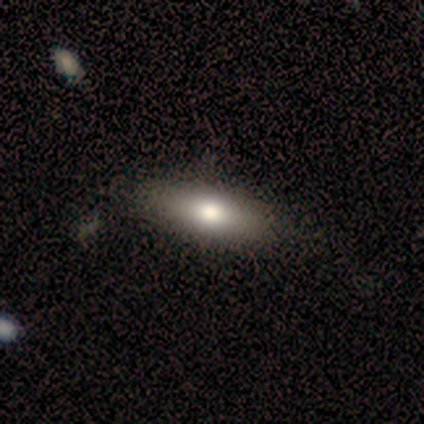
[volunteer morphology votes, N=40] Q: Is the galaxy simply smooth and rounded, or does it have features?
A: smooth — 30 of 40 (75%).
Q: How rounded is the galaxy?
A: in between — 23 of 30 (77%).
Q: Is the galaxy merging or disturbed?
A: none — 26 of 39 (67%).